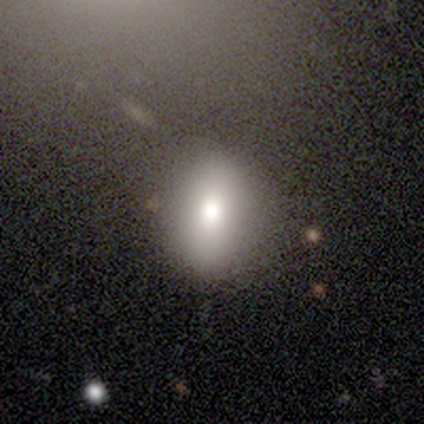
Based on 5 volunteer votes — smooth_or_featured: smooth (p=0.40) [tied with: star or artifact p=0.40]
how_rounded: round (p=0.50) [tied with: in between p=0.50]
merging: none (p=1.00)